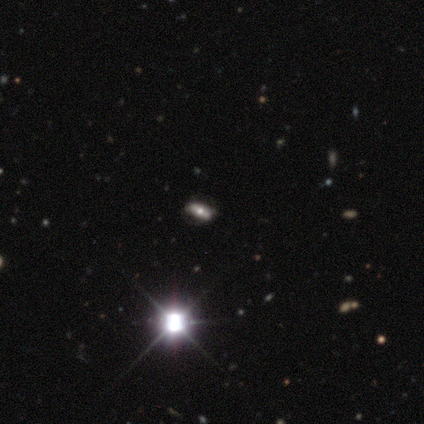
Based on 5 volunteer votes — This is marginally a featured or disk galaxy (40%, tied with star or artifact). It is possibly viewed edge-on (50%, tied with no). Edge-on bulge: clearly rounded (100%). Merging: likely minor disturbance (67%).